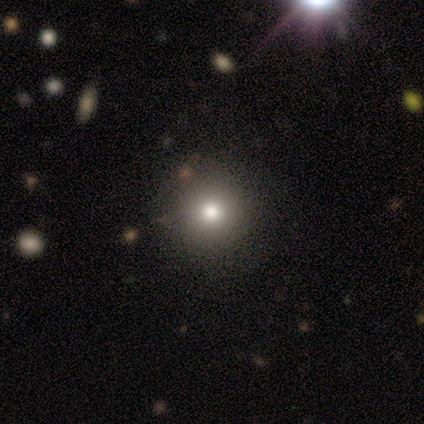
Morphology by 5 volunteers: smooth_or_featured: smooth (p=0.80) [alt: star or artifact p=0.20]
how_rounded: round (p=1.00)
merging: minor disturbance (p=0.50) [alt: none p=0.25]